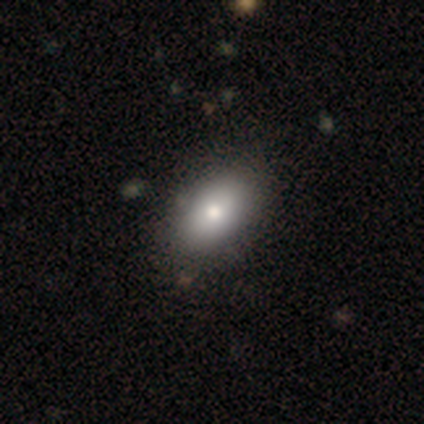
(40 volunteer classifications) Smooth or featured?
  - smooth: 78% *
  - featured or disk: 18%
  - star or artifact: 5%
How rounded?
  - in between: 94% *
  - round: 3%
  - cigar-shaped: 3%
Merging?
  - none: 71% *
  - minor disturbance: 3%
  - merger: 3%
  - major disturbance: 0%